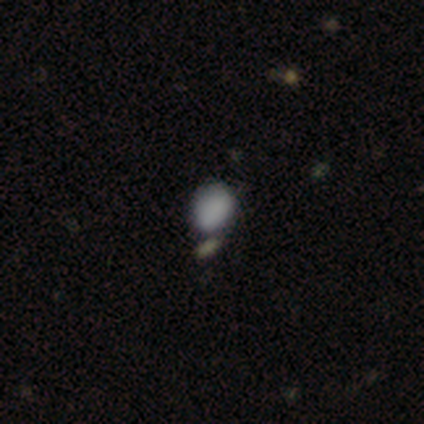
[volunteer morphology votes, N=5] Smooth or featured?
  - smooth: 80% *
  - star or artifact: 20%
  - featured or disk: 0%
How rounded?
  - round: 50% * (tied)
  - in between: 50% * (tied)
  - cigar-shaped: 0%
Merging?
  - none: 50% *
  - minor disturbance: 25%
  - merger: 25%
  - major disturbance: 0%